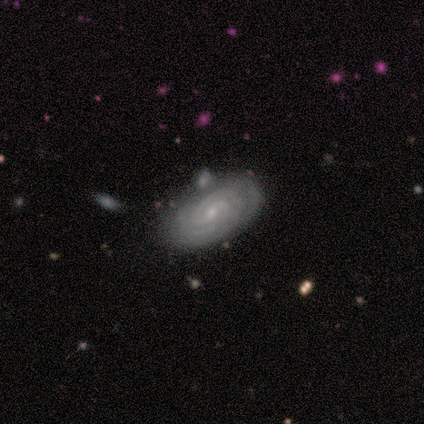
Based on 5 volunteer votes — A featured or disk galaxy (100%) with no bar (60%), 2 (40%, tied with can't tell) tight (100%) spiral arms (100%) and a small central bulge (100%). Merging: none (100%).